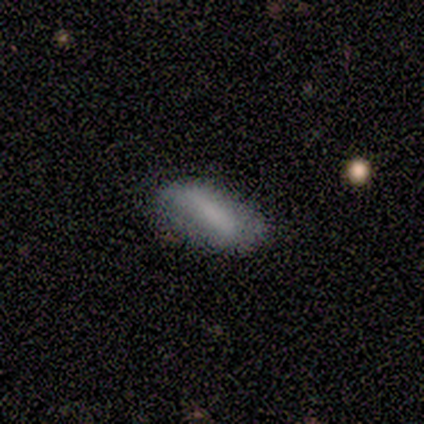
smooth-or-featured: smooth: 80% | featured or disk: 20% | star or artifact: 0%
  how-rounded: in between: 75% | cigar-shaped: 25% | round: 0%
  merging: none: 60% | minor disturbance: 40% | major disturbance: 0% | merger: 0%